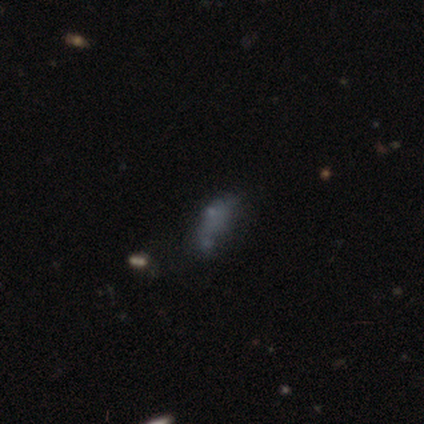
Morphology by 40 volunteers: smooth-or-featured: smooth: 65% | star or artifact: 20% | featured or disk: 15%
  how-rounded: in between: 81% | cigar-shaped: 19% | round: 0%
  merging: minor disturbance: 34% | none: 31% | major disturbance: 25% | merger: 9%